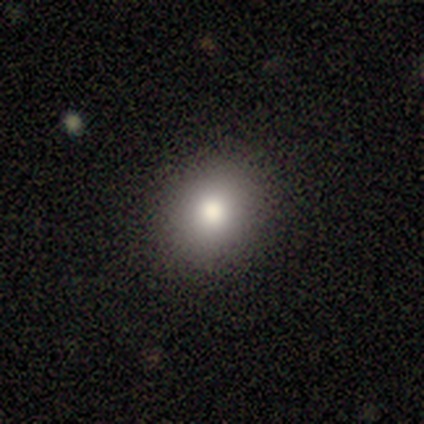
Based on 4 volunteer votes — Q: Smooth or featured?
A: smooth (100%)
Q: How rounded?
A: in between (100%)
Q: Merging?
A: none (75%); runner-up: minor disturbance (25%)